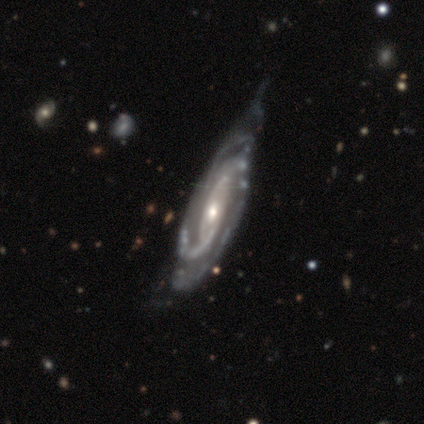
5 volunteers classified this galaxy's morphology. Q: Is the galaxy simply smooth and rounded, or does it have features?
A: featured or disk — 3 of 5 (60%).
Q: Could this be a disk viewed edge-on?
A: no — 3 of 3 (100%).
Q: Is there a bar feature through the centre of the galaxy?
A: no — 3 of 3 (100%).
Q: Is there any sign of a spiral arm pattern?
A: yes — 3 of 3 (100%).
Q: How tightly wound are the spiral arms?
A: tight — 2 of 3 (67%).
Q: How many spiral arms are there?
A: can't tell — 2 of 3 (67%).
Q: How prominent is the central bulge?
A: small — 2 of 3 (67%).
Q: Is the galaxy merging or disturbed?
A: minor disturbance — 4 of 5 (80%).